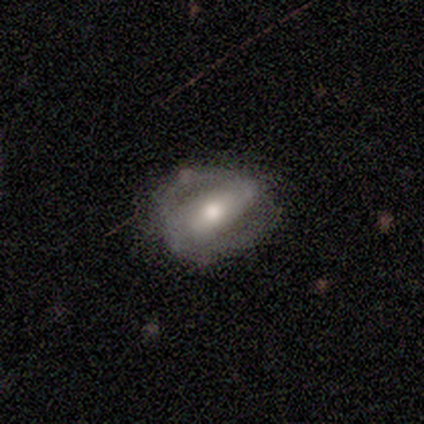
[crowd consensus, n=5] smooth-or-featured: featured or disk: 80% | smooth: 20% | star or artifact: 0%
  disk-edge-on: no: 75% | yes: 25%
    bar: strong: 67% | no: 33% | weak: 0%
    has-spiral-arms: yes: 67% | no: 33%
      spiral-winding: loose: 100% | tight: 0% | medium: 0%
      spiral-arm-count: 1: 50% (tied) | 2: 50% (tied) | 3: 0% | 4: 0% | more than 4: 0% | can't tell: 0%
    bulge-size: moderate: 100% | dominant: 0% | large: 0% | small: 0% | none: 0%
  merging: none: 60% | minor disturbance: 20% | major disturbance: 20% | merger: 0%